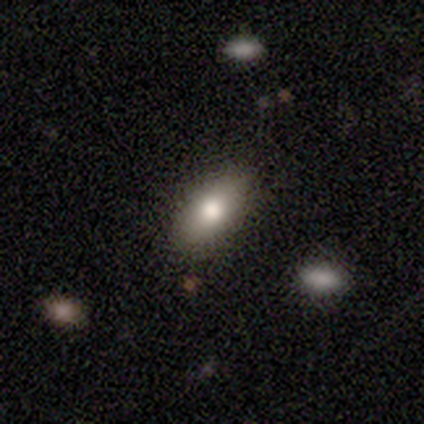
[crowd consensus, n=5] Smooth or featured?
  - smooth: 60% *
  - featured or disk: 40%
  - star or artifact: 0%
How rounded?
  - round: 33% * (tied)
  - in between: 33% * (tied)
  - cigar-shaped: 33% * (tied)
Merging?
  - none: 80% *
  - minor disturbance: 20%
  - major disturbance: 0%
  - merger: 0%